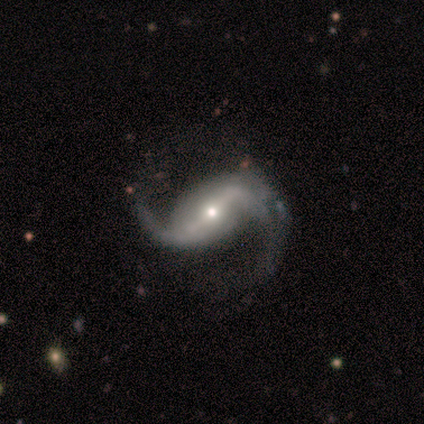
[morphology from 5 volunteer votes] This is clearly a featured or disk galaxy (80%). It is clearly not viewed edge-on (100%). Bar: possibly strong (50%, tied with weak). Spiral arm pattern: clearly yes (100%). Spiral arm count: clearly 2 (100%). Spiral winding: likely medium (75%). Central bulge: possibly moderate (50%, tied with small). Merging: clearly none (100%).